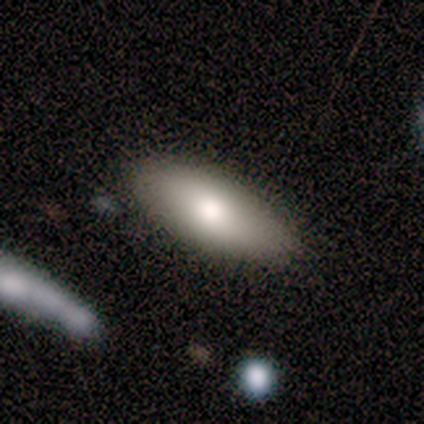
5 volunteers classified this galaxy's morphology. Smooth or featured: smooth — 80% (featured or disk — 20%)
How rounded: in between — 100%
Merging: none — 60% (minor disturbance — 20%)